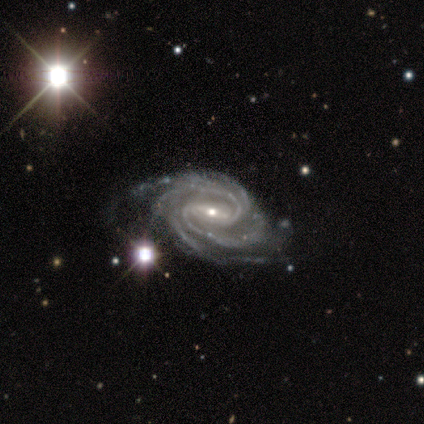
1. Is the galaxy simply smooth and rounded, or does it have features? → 92% featured or disk, 6% star or artifact, 2% smooth.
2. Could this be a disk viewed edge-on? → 96% no, 4% yes.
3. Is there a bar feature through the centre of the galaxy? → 51% weak, 38% strong, 11% no.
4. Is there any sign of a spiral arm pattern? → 98% yes, 2% no.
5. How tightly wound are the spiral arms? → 52% tight, 44% medium, 4% loose.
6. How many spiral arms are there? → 67% 4, 11% 2, 9% 3, 9% more than 4, 4% can't tell, 0% 1.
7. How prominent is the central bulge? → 69% small, 31% moderate, 0% dominant, 0% large, 0% none.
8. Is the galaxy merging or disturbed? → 47% none, 17% minor disturbance, 7% major disturbance, 2% merger.